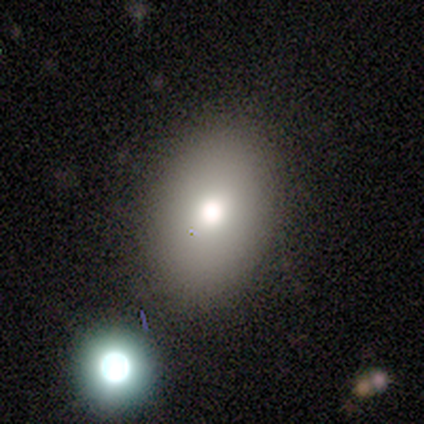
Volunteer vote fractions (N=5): smooth-or-featured: smooth: 60% | star or artifact: 40% | featured or disk: 0%
  how-rounded: in between: 100% | round: 0% | cigar-shaped: 0%
  merging: none: 100% | minor disturbance: 0% | major disturbance: 0% | merger: 0%